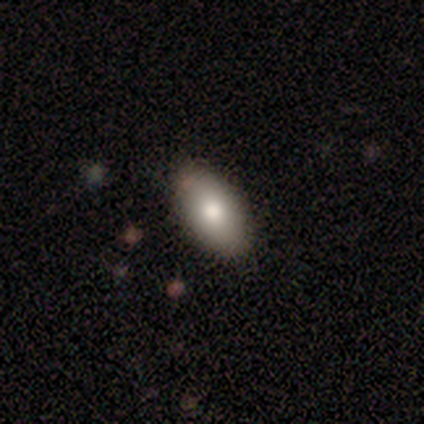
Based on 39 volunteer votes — Volunteers were most divided on "smooth or featured": smooth: 85%, featured or disk: 10%, star or artifact: 5%. More confident: how rounded — in between (100%); merging — none (86%).